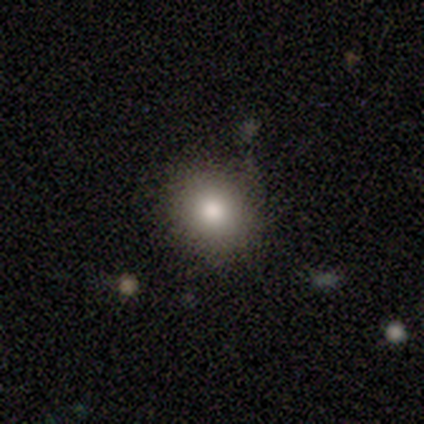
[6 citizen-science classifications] Volunteers were most divided on "how rounded": round: 67%, in between: 33%, cigar-shaped: 0%. More confident: smooth or featured — smooth (100%); merging — none (67%).